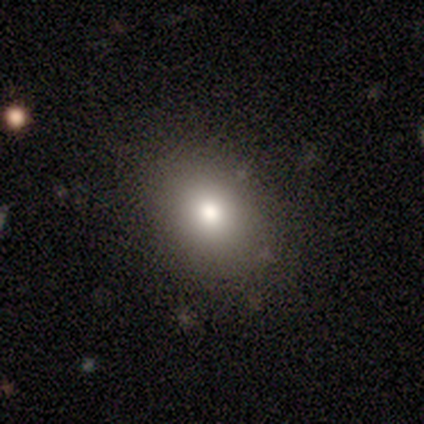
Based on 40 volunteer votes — Overall: smooth (60%; featured or disk 28%). How rounded: round (50%, tied with in between). Merging: none (69%).